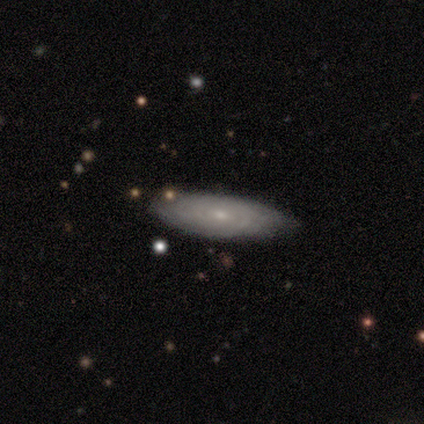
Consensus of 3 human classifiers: featured or disk 67%, smooth 33%, star or artifact 0%. Down the decision tree: edge-on disk — yes (50%, tied with no); edge-on bulge — none (100%); merging — none (67%).